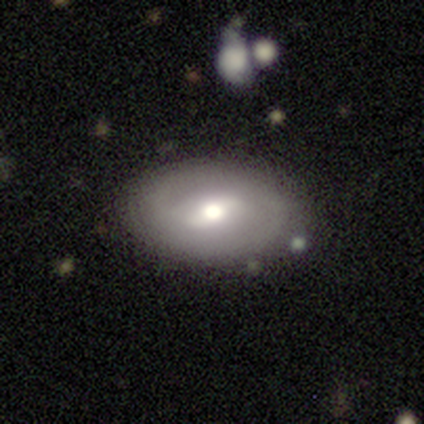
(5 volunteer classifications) Smooth or featured?
  - featured or disk: 60% *
  - smooth: 40%
  - star or artifact: 0%
Edge-on disk?
  - no: 100% *
  - yes: 0%
Bar?
  - weak: 67% *
  - strong: 33%
  - no: 0%
Spiral arms?
  - yes: 67% *
  - no: 33%
Spiral winding?
  - medium: 100% *
  - tight: 0%
  - loose: 0%
Spiral arm count?
  - 2: 100% *
  - 1: 0%
  - 3: 0%
  - 4: 0%
  - more than 4: 0%
  - can't tell: 0%
Bulge size?
  - moderate: 67% *
  - large: 33%
  - dominant: 0%
  - small: 0%
  - none: 0%
Merging?
  - none: 100% *
  - minor disturbance: 0%
  - major disturbance: 0%
  - merger: 0%